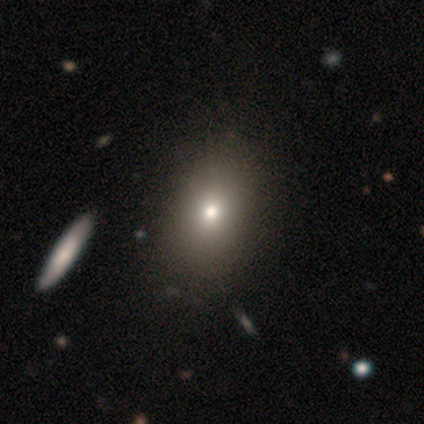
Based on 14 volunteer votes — Smooth or featured? smooth (64%)
How rounded? in between (89%)
Merging? none (92%)